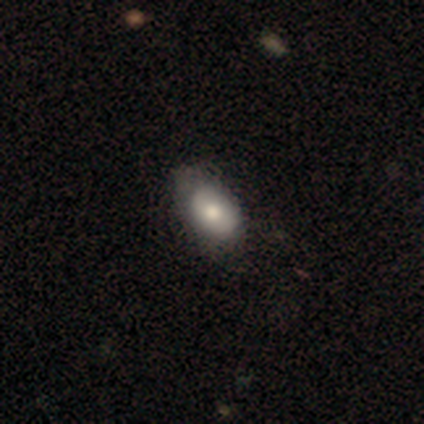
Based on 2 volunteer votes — smooth-or-featured: smooth: 50% (tied) | featured or disk: 50% (tied) | star or artifact: 0%
  how-rounded: in between: 100% | round: 0% | cigar-shaped: 0%
  merging: none: 50% (tied) | minor disturbance: 50% (tied) | major disturbance: 0% | merger: 0%